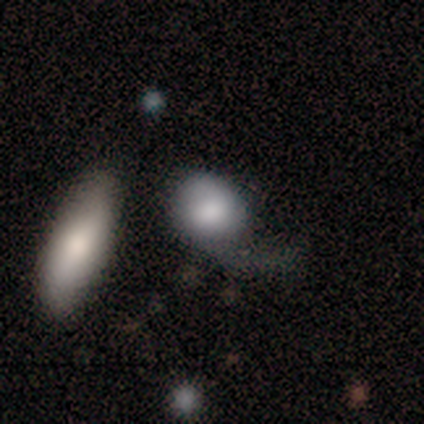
A smooth galaxy with no disk features (80%) that is round (75%). Merging: none (40%, tied with merger).